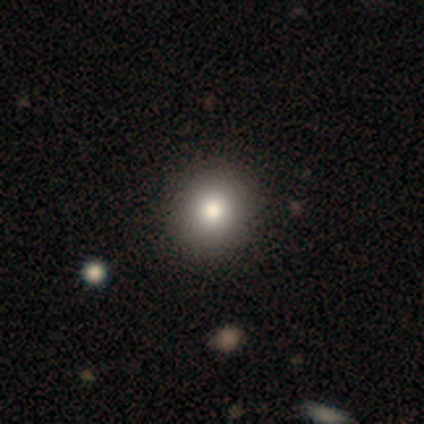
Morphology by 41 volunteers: Smooth or featured? smooth (78%)
How rounded? round (84%)
Merging? none (97%)